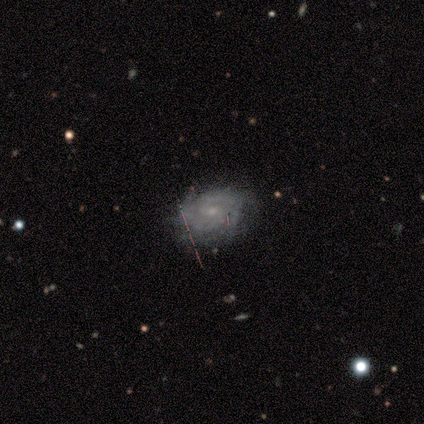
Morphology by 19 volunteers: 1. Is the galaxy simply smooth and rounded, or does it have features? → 95% featured or disk, 5% star or artifact, 0% smooth.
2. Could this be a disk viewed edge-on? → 94% no, 6% yes.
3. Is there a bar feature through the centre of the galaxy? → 59% no, 41% weak, 0% strong.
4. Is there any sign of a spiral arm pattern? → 100% yes, 0% no.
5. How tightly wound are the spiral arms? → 76% tight, 24% medium, 0% loose.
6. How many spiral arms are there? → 71% can't tell, 12% 2, 6% 3, 6% 4, 6% more than 4, 0% 1.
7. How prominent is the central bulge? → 76% small, 24% moderate, 0% dominant, 0% large, 0% none.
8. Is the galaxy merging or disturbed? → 78% none, 22% minor disturbance, 0% major disturbance, 0% merger.